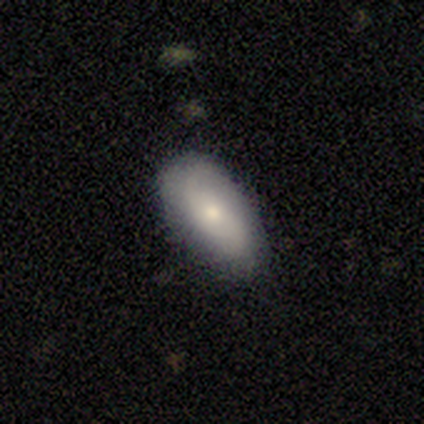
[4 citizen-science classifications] Smooth or featured? 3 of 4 (75%) said smooth. How rounded? 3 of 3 (100%) said in between. Merging? 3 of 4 (75%) said none.